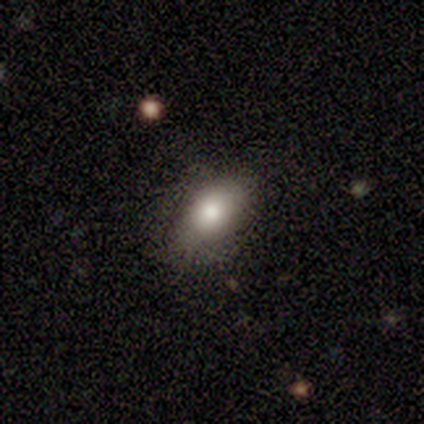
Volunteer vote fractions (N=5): This appears to be a smooth galaxy with no disk features (60%) that is in between round and cigar-shaped (67%). Merging: none (100%).